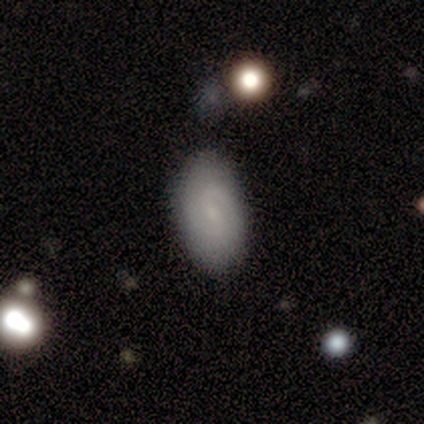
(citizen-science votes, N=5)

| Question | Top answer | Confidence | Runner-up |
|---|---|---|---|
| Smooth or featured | featured or disk | 80% | star or artifact (20%) |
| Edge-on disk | no | 75% | yes (25%) |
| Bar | weak | 67% | no (33%) |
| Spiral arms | yes | 100% | — |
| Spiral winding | tight | 67% | loose (33%) |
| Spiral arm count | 2 | 100% | — |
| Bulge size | small | 67% | none (33%) |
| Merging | none | 75% | major disturbance (25%) |